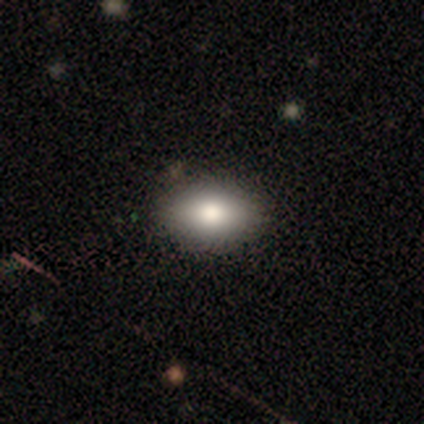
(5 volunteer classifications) A smooth galaxy with no disk features (100%) that is in between round and cigar-shaped (100%).

Vote fractions:
- Smooth or featured? smooth: 100% / featured or disk: 0% / star or artifact: 0%
- How rounded? in between: 100% / round: 0% / cigar-shaped: 0%
- Merging? none: 100% / minor disturbance: 0% / major disturbance: 0% / merger: 0%